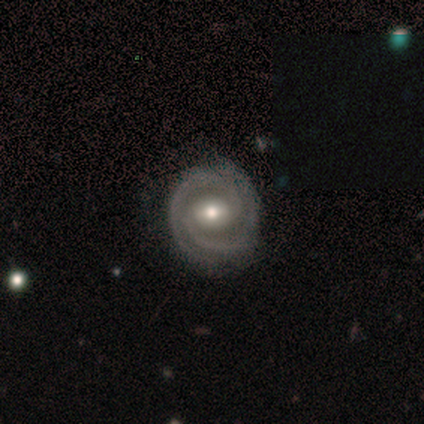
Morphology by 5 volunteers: A featured or disk galaxy (100%) with a weak bar (80%), 2 (100%) tight (80%) spiral arms (100%) and a moderate central bulge (60%). Merging: none (60%).